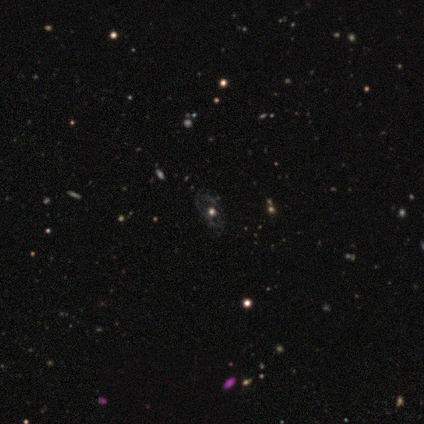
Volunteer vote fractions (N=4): Smooth or featured: smooth — 50% (featured or disk — 25%)
How rounded: round — 50% (tied with in between — 50%)
Merging: none — 67% (major disturbance — 33%)